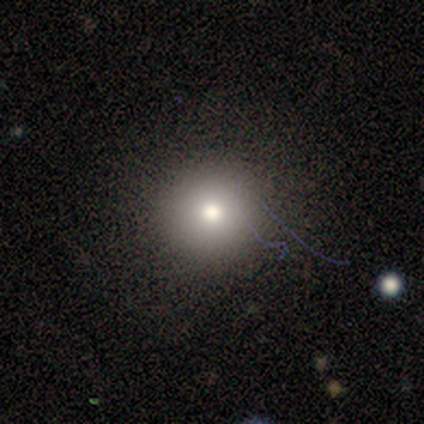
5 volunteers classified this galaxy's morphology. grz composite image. It shows a smooth galaxy with no disk features (80%) that is round (100%). Merging: none (100%).